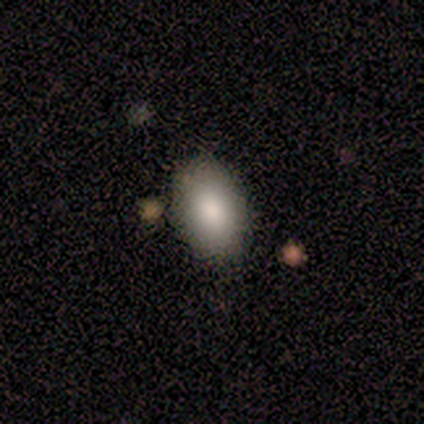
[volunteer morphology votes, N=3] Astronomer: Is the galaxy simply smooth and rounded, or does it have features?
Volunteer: smooth — 67%.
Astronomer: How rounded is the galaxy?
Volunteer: in between — 100%.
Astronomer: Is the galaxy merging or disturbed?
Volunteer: none — 67%.